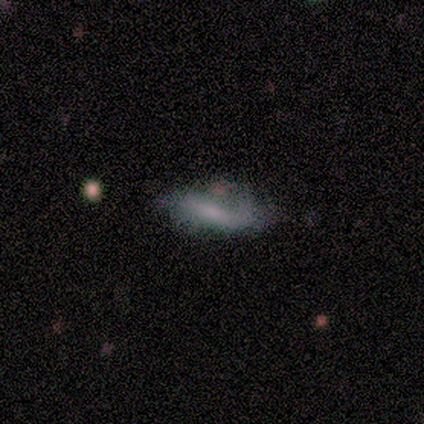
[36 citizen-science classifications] A smooth galaxy with no disk features (50%) that is in between round and cigar-shaped (56%).

Vote fractions:
- Smooth or featured? smooth: 50% / featured or disk: 44% / star or artifact: 6%
- How rounded? in between: 56% / cigar-shaped: 44% / round: 0%
- Merging? none: 53% / minor disturbance: 24% / major disturbance: 21% / merger: 3%